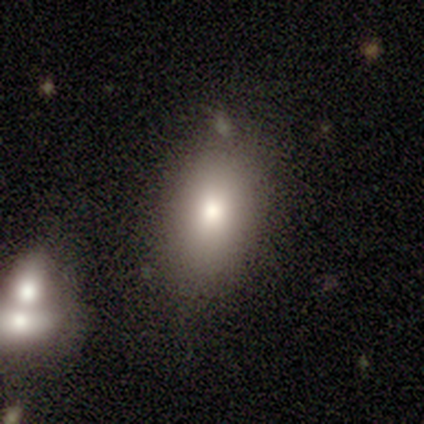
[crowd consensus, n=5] Volunteers were most divided on "merging" (2-way tie): none: 50%, minor disturbance: 50%, major disturbance: 0%, merger: 0%. More confident: how rounded — in between (100%); smooth or featured — smooth (80%).